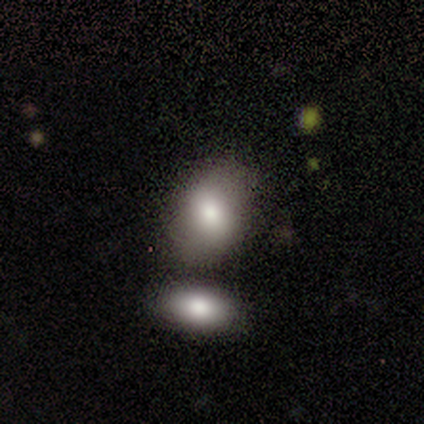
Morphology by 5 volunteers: smooth_or_featured: smooth (p=1.00)
how_rounded: in between (p=0.60) [alt: round p=0.40]
merging: none (p=0.80) [alt: merger p=0.20]